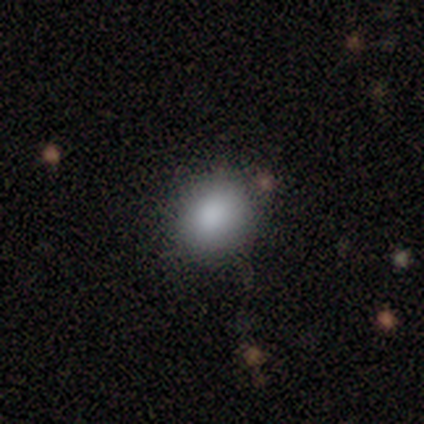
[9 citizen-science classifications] A smooth galaxy with no disk features (100%) that is round (67%). Merging: none (89%).